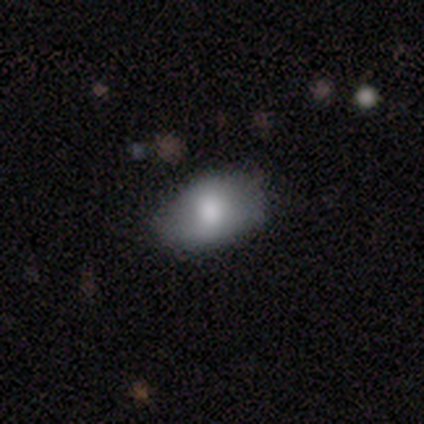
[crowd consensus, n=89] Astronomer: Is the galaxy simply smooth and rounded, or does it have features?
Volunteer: smooth — 72%.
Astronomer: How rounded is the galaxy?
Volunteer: in between — 89%.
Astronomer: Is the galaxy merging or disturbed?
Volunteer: none — 73%.